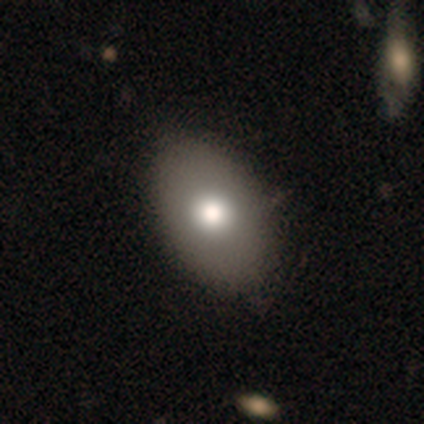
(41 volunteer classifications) Smooth or featured? 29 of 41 (71%) said smooth. How rounded? 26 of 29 (90%) said in between. Merging? 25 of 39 (64%) said none.